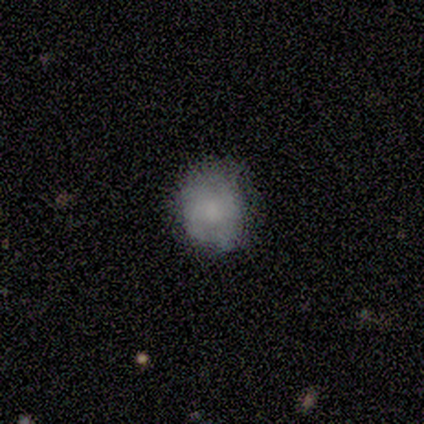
Smooth or featured?
  - star or artifact: 100% *
  - smooth: 0%
  - featured or disk: 0%